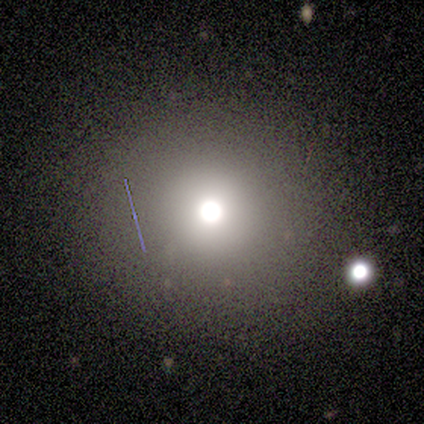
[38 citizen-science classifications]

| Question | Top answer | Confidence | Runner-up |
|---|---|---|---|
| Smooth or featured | smooth | 63% | star or artifact (32%) |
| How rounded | round | 96% | in between (4%) |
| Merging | none | 81% | merger (12%) |